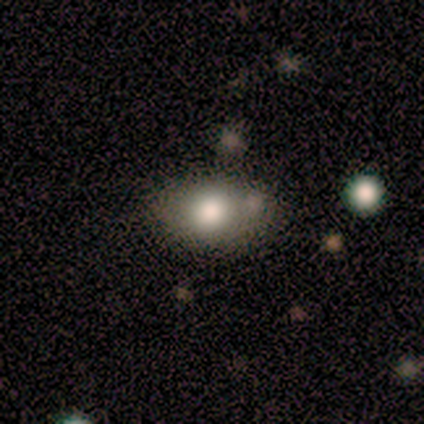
Overall: smooth (80%). How rounded: in between (100%). Merging: none (40%, tied with minor disturbance).